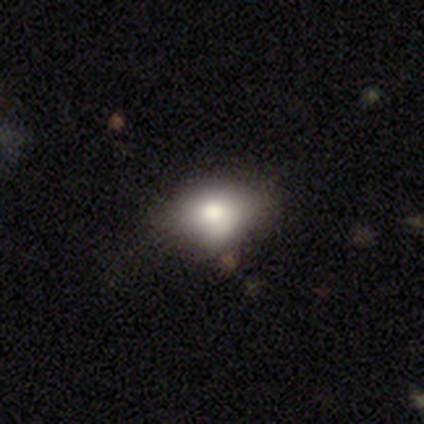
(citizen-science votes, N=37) Overall: smooth (73%). How rounded: in between (78%). Merging: none (64%).